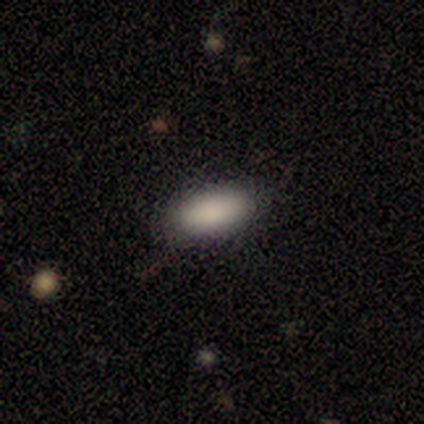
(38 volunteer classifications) This is clearly a smooth galaxy (92%). How rounded: clearly in between (80%). Merging: clearly none (83%).